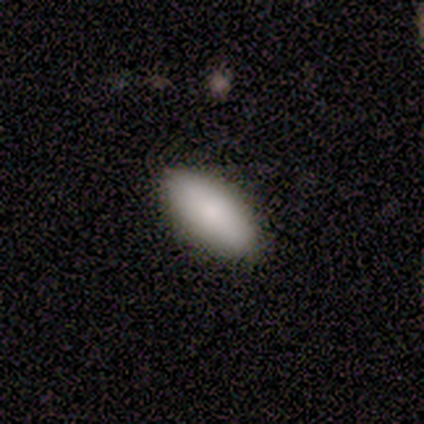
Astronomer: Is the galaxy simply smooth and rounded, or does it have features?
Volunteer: smooth — 100%.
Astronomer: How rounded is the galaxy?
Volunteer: in between — 80%.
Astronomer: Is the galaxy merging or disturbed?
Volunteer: none — 80%.